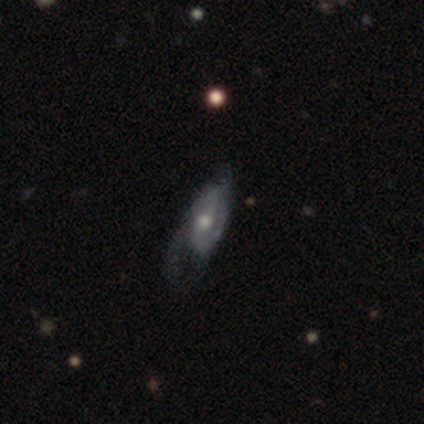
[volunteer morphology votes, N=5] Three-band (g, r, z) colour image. It shows a featured or disk galaxy (80%) with a weak bar (75%), 2 (75%) medium (75%) spiral arms (100%) and a moderate central bulge (75%). Merging: none (60%).